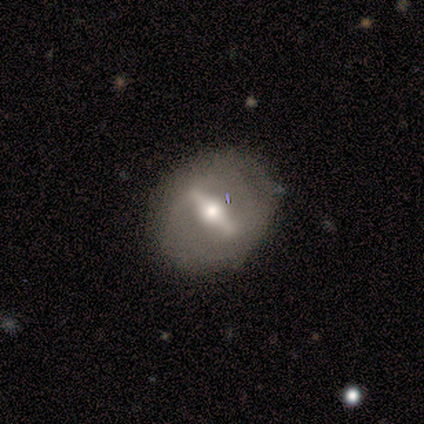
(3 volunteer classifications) Smooth or featured? smooth (67%)
How rounded? round (50%, tied with in between)
Merging? none (67%)